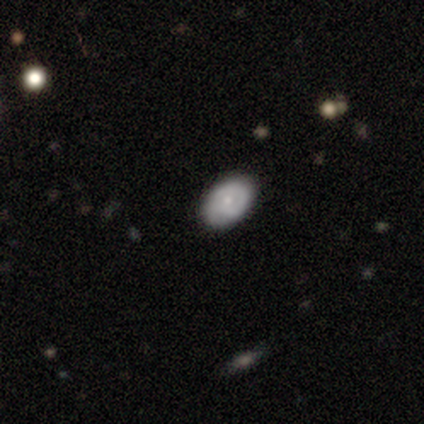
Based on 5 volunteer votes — Smooth or featured: smooth — 60% (featured or disk — 40%)
How rounded: in between — 67% (round — 33%)
Merging: none — 100%